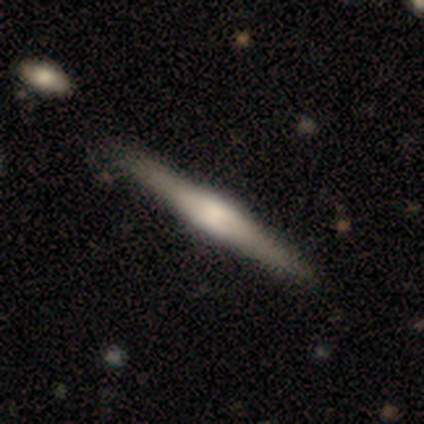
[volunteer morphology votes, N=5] Smooth or featured? featured or disk (60%)
Edge-on disk? yes (100%)
Edge-on bulge? boxy (100%)
Merging? none (100%)